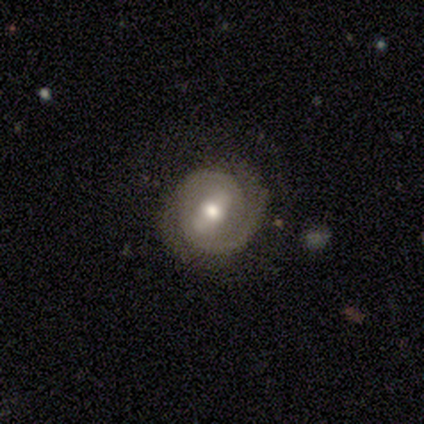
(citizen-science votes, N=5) Smooth or featured? 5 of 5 (100%) said featured or disk. Edge-on disk? 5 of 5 (100%) said no. Bar? 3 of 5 (60%) said weak. Spiral arms? 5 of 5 (100%) said yes. Spiral winding? 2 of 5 (40%, tied with medium) said tight. Spiral arm count? 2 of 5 (40%, tied with 2) said 1. Bulge size? 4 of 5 (80%) said moderate. Merging? 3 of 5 (60%) said none.